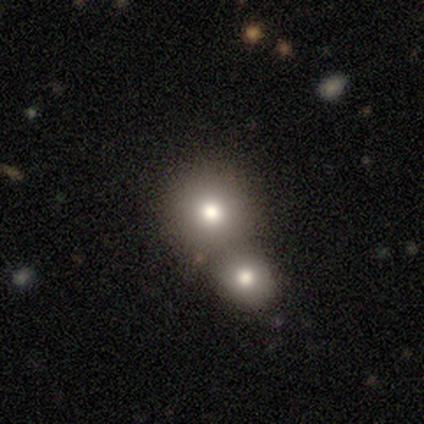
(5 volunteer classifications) This appears to be a smooth galaxy with no disk features (100%) that is round (100%). Merging: none (60%).